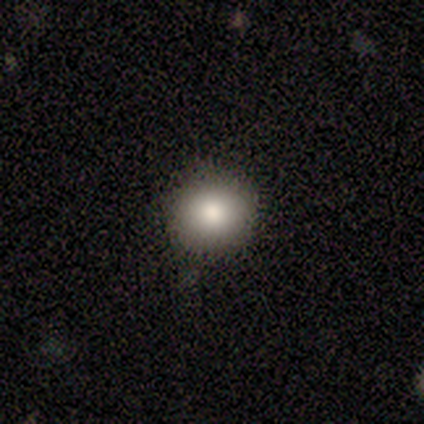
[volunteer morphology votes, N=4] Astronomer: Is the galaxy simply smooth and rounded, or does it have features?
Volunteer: smooth — 75%.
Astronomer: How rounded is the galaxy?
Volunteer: round — 100%.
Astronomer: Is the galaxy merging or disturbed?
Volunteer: none — 75%.